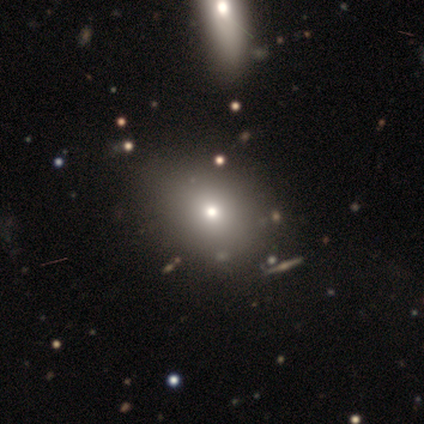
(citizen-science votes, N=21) smooth-or-featured: smooth: 86% | featured or disk: 14% | star or artifact: 0%
  how-rounded: in between: 72% | round: 28% | cigar-shaped: 0%
  merging: minor disturbance: 29% | none: 14% | merger: 14% | major disturbance: 0%